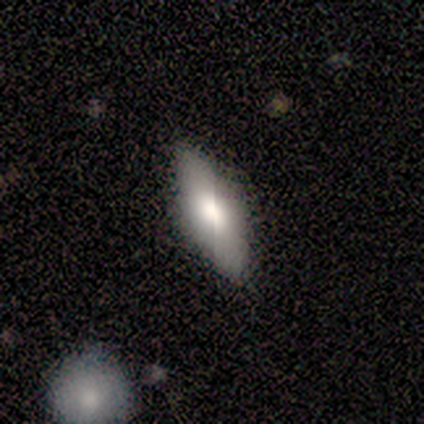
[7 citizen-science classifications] A smooth galaxy with no disk features (43%, tied with featured or disk) that is in between round and cigar-shaped (100%).

Vote fractions:
- Smooth or featured? smooth: 43% (tied) / featured or disk: 43% (tied) / star or artifact: 14%
- How rounded? in between: 100% / round: 0% / cigar-shaped: 0%
- Merging? none: 83% / minor disturbance: 17% / major disturbance: 0% / merger: 0%